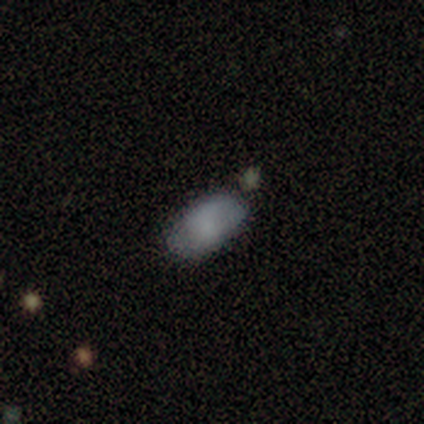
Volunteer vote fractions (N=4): This is likely a smooth galaxy (75%). How rounded: clearly in between (100%). Merging: likely none (75%).